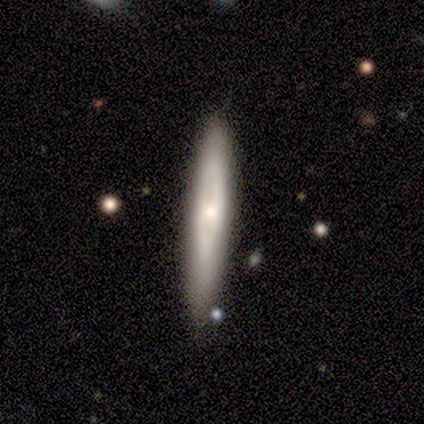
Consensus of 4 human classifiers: smooth 50% (tied), featured or disk 50% (tied), star or artifact 0%. Down the decision tree: how rounded — cigar-shaped (100%); merging — none (100%).